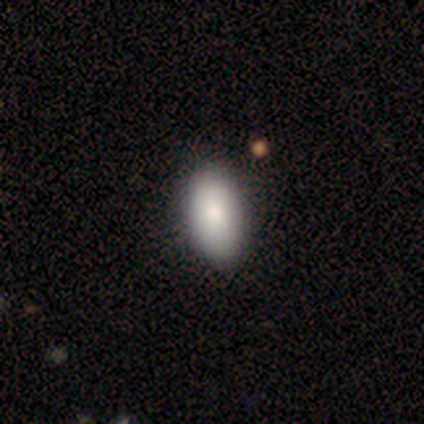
Morphology: type=smooth (74%); roundness=in between (93%); merging=none (59%).